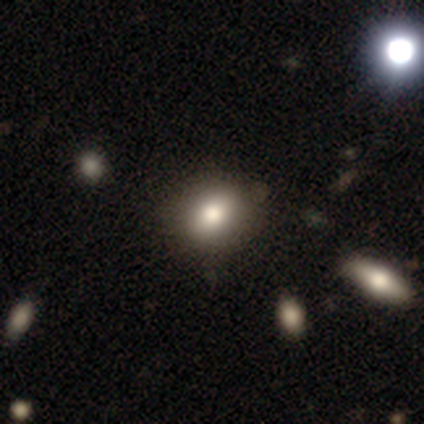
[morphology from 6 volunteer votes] Smooth or featured: smooth — 83% (star or artifact — 17%)
How rounded: round — 60% (in between — 40%)
Merging: none — 60% (minor disturbance — 40%)